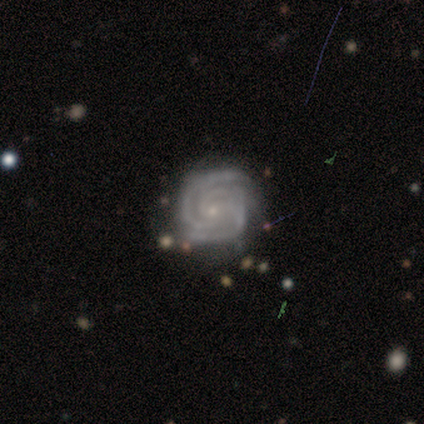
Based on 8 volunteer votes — smooth-or-featured: featured or disk: 88% | smooth: 12% | star or artifact: 0%
  disk-edge-on: no: 100% | yes: 0%
    bar: no: 86% | weak: 14% | strong: 0%
    has-spiral-arms: yes: 100% | no: 0%
      spiral-winding: tight: 86% | medium: 14% | loose: 0%
      spiral-arm-count: 2: 71% | 3: 29% | 1: 0% | 4: 0% | more than 4: 0% | can't tell: 0%
    bulge-size: small: 71% | moderate: 14% | none: 14% | dominant: 0% | large: 0%
  merging: none: 75% | major disturbance: 12% | merger: 12% | minor disturbance: 0%